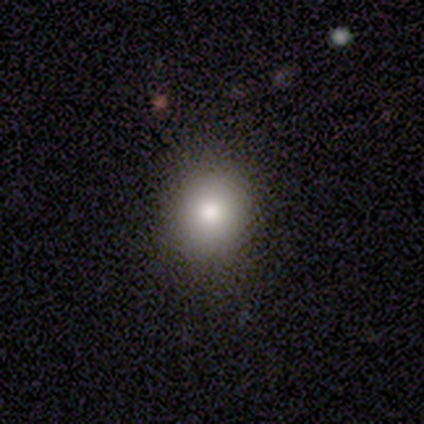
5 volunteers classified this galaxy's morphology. This appears to be a smooth galaxy with no disk features (100%) that is round (60%). Merging: none (100%).